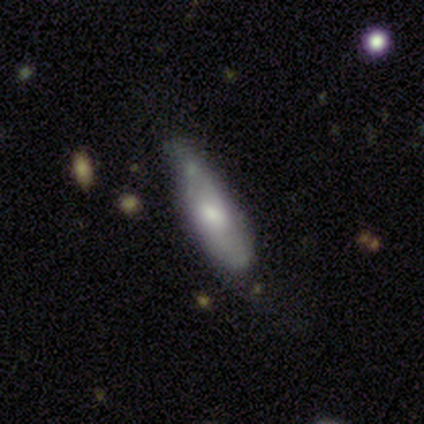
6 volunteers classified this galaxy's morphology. featured or disk 67%, smooth 33%, star or artifact 0%. Down the decision tree: edge-on disk — no (100%); bar — weak (50%, tied with no); spiral arms — yes (75%); spiral arm count — 2 (100%); spiral winding — medium (67%); bulge size — moderate (50%, tied with small); merging — none (67%).